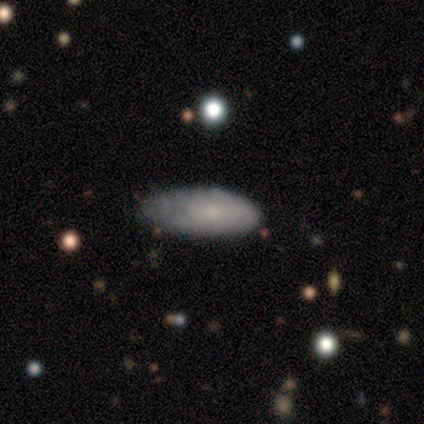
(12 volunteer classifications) Morphology: type=smooth (83%); roundness=in between (70%); merging=none (45%).